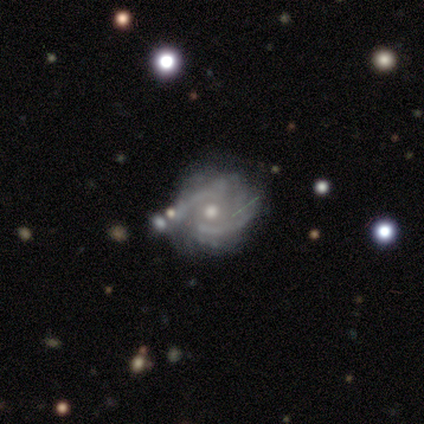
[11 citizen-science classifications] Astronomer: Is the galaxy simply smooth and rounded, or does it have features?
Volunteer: featured or disk — 82%.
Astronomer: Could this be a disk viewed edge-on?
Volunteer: no — 100%.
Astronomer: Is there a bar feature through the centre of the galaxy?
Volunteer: no — 67%.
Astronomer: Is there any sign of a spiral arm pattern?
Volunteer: yes — 100%.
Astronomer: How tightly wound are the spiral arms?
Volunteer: medium — 67%.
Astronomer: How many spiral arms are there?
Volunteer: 2 — 44%, tied with can't tell at 44%.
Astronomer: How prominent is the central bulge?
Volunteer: moderate — 78%.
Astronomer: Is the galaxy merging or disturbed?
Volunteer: none — 50% (runner-up: major disturbance, 30%).